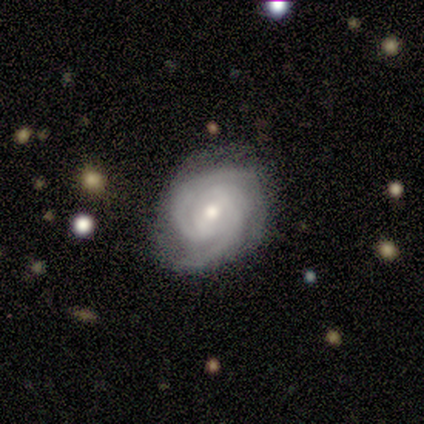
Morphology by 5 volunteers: Overall: featured or disk (100%). Edge-on disk: no (100%). Bar: no (60%; strong 20%). Spiral arms: yes (100%). Spiral arm count: 2 (60%; 4 20%). Spiral winding: tight (80%). Bulge size: small (60%; moderate 40%). Merging: none (60%; minor disturbance 20%).